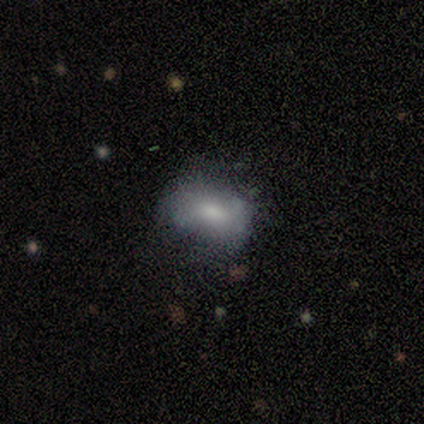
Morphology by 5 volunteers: Smooth or featured? 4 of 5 (80%) said smooth. How rounded? 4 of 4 (100%) said in between. Merging? 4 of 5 (80%) said none.